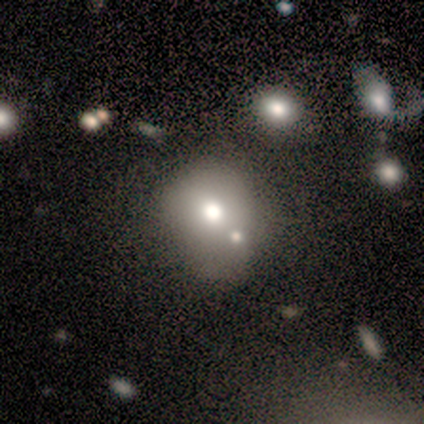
Q: Smooth or featured?
A: smooth (75%); runner-up: featured or disk (25%)
Q: How rounded?
A: round (67%); runner-up: in between (33%)
Q: Merging?
A: merger (50%); runner-up: none (25%)